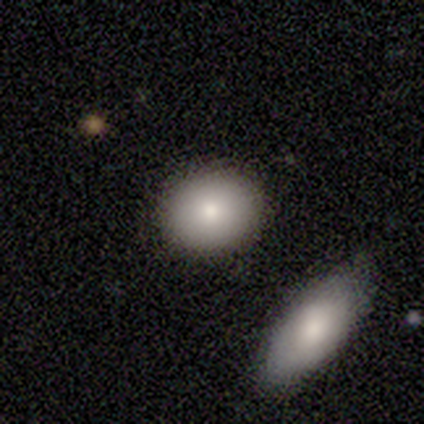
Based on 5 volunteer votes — smooth-or-featured: smooth: 80% | featured or disk: 20% | star or artifact: 0%
  how-rounded: round: 50% (tied) | in between: 50% (tied) | cigar-shaped: 0%
  merging: none: 80% | minor disturbance: 20% | major disturbance: 0% | merger: 0%